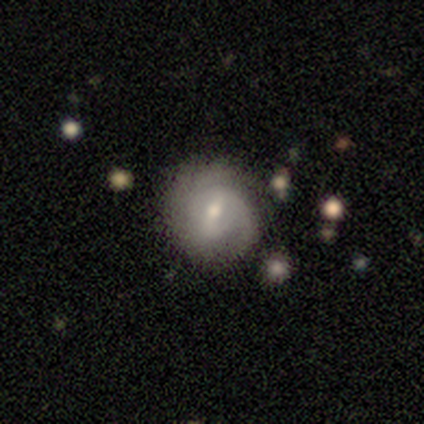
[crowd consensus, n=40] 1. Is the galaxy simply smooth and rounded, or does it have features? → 72% featured or disk, 18% smooth, 10% star or artifact.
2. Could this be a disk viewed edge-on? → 100% no, 0% yes.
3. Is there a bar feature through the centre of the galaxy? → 52% weak, 28% no, 21% strong.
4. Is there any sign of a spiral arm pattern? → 90% yes, 10% no.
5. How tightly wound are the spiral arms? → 50% tight, 42% medium, 8% loose.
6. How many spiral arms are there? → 46% 2, 23% 1, 23% can't tell, 8% 3, 0% 4, 0% more than 4.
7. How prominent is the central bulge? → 52% moderate, 41% small, 3% dominant, 3% large, 0% none.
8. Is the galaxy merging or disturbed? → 64% none, 19% minor disturbance, 11% major disturbance, 6% merger.